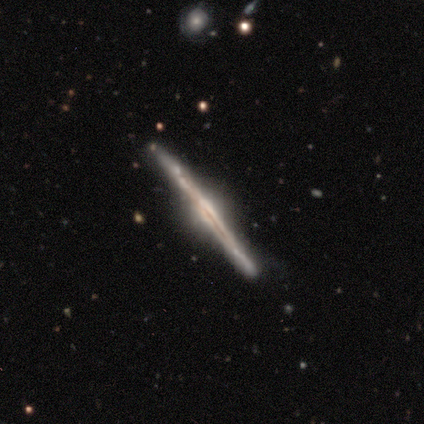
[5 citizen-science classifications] A featured or disk galaxy (100%) viewed edge-on (100%) with a rounded central bulge (80%). Merging: none (100%).